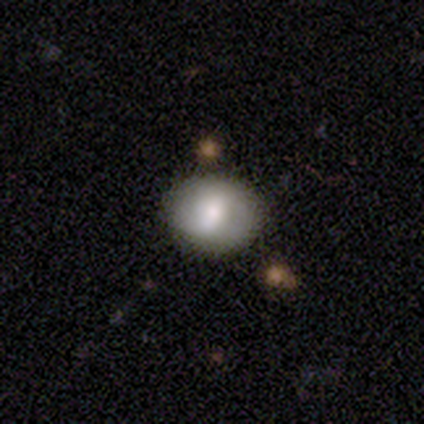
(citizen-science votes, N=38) This appears to be a smooth galaxy with no disk features (61%) that is round (61%). Merging: none (92%).